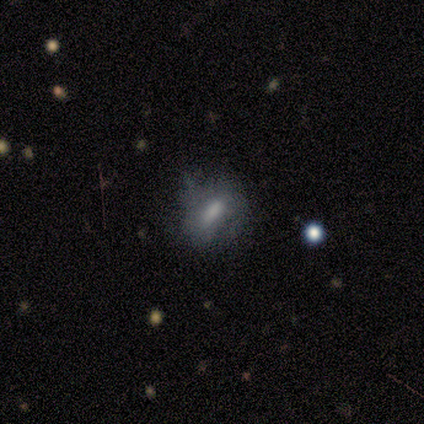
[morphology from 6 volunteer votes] Smooth or featured? 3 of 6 (50%, tied with featured or disk) said smooth. How rounded? 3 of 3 (100%) said in between. Merging? 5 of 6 (83%) said none.